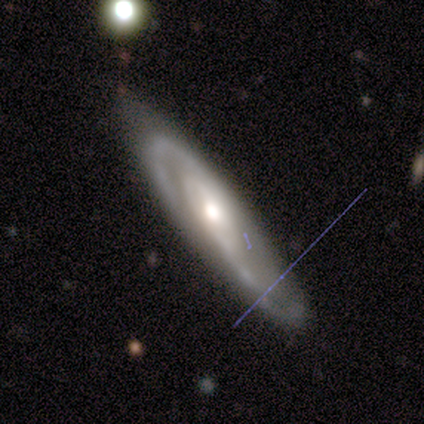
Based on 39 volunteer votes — smooth_or_featured: featured or disk (p=0.90) [alt: smooth p=0.05]
disk_edge_on: no (p=0.80) [alt: yes p=0.20]
bar: weak (p=0.43) [alt: no p=0.39]
has_spiral_arms: yes (p=1.00)
spiral_winding: medium (p=0.57) [alt: tight p=0.25]
spiral_arm_count: 2 (p=0.75) [alt: can't tell p=0.21]
bulge_size: moderate (p=0.54) [alt: large p=0.29]
merging: none (p=0.62) [alt: minor disturbance p=0.24]